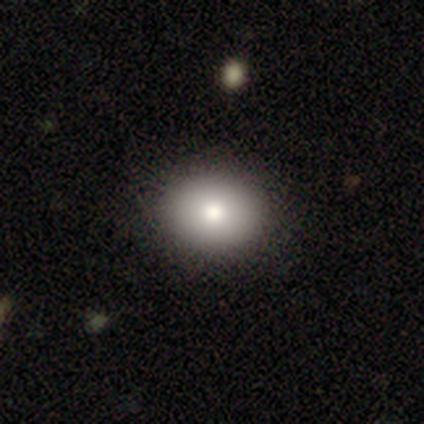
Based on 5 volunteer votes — A smooth galaxy with no disk features (100%) that is in between round and cigar-shaped (80%).

Vote fractions:
- Smooth or featured? smooth: 100% / featured or disk: 0% / star or artifact: 0%
- How rounded? in between: 80% / round: 20% / cigar-shaped: 0%
- Merging? none: 100% / minor disturbance: 0% / major disturbance: 0% / merger: 0%